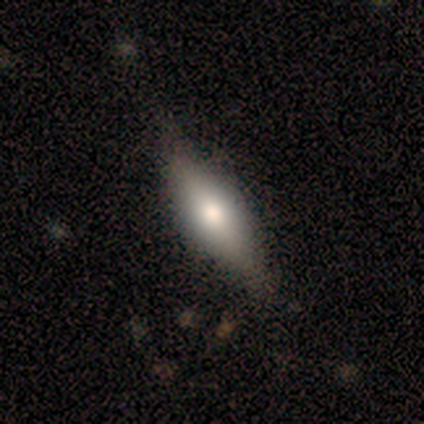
This is likely a featured or disk galaxy (60%). It is clearly viewed edge-on (100%). Edge-on bulge: clearly rounded (100%). Merging: likely none (60%).